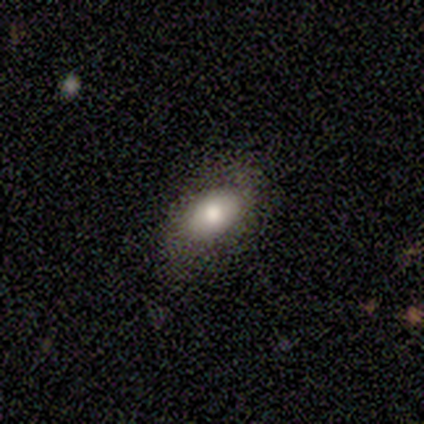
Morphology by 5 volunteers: Overall: smooth (60%; featured or disk 40%). How rounded: in between (67%; round 33%). Merging: none (80%).